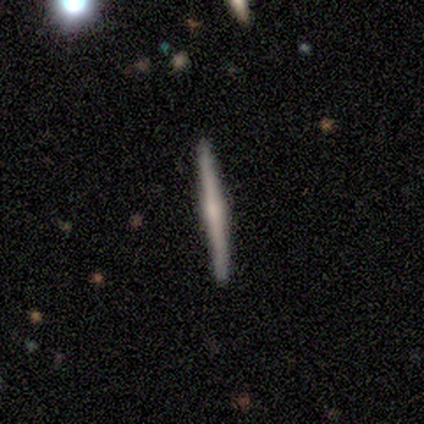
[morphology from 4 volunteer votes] A smooth galaxy with no disk features (75%) that is cigar-shaped (100%). Merging: none (100%).